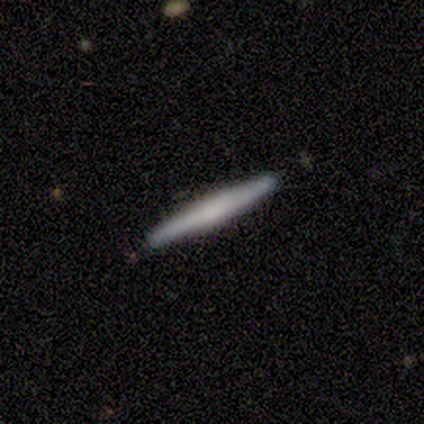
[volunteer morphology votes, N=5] Overall: featured or disk (60%; smooth 20%). Edge-on disk: yes (100%). Edge-on bulge: boxy (100%). Merging: none (75%).